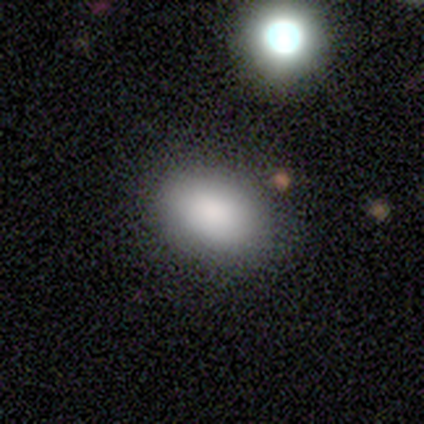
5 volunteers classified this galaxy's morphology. smooth 100%, featured or disk 0%, star or artifact 0%. Down the decision tree: how rounded — in between (100%); merging — none (100%).